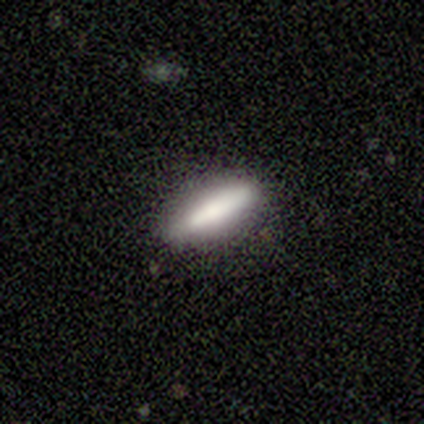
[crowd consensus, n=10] Overall: smooth (70%; featured or disk 30%). How rounded: cigar-shaped (86%). Merging: none (90%).